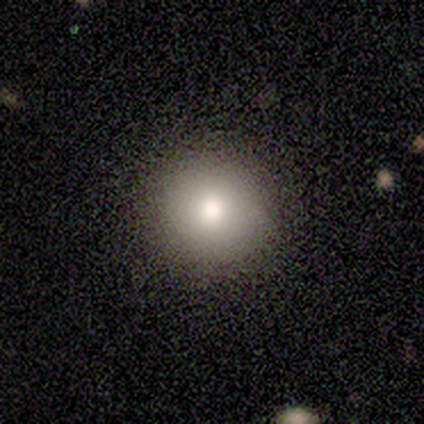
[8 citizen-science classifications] smooth_or_featured: smooth (p=0.62) [alt: featured or disk p=0.25]
how_rounded: round (p=1.00)
merging: none (p=1.00)